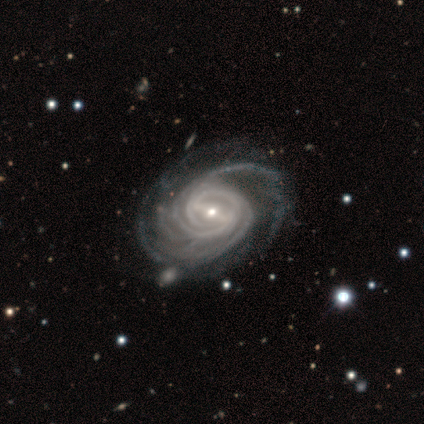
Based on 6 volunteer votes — featured or disk 100%, smooth 0%, star or artifact 0%. Down the decision tree: edge-on disk — no (100%); bar — strong (50%); spiral arms — yes (100%); spiral arm count — 3 (33%, tied with 4); spiral winding — tight (67%); bulge size — small (67%); merging — none (83%).